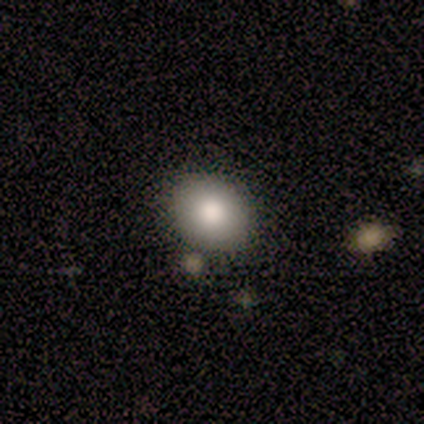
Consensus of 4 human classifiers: smooth 100%, featured or disk 0%, star or artifact 0%. Down the decision tree: how rounded — in between (75%); merging — none (75%).